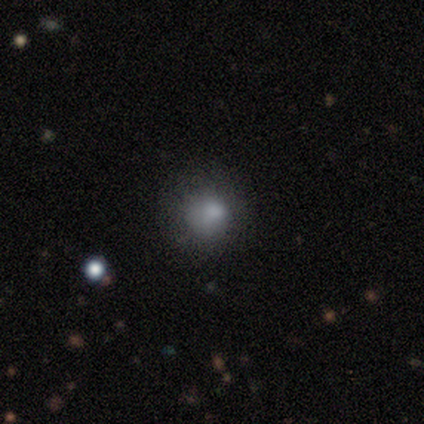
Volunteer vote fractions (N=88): Q: Smooth or featured?
A: smooth (74%); runner-up: star or artifact (14%)
Q: How rounded?
A: round (78%); runner-up: in between (22%)
Q: Merging?
A: none (59%); runner-up: minor disturbance (28%)